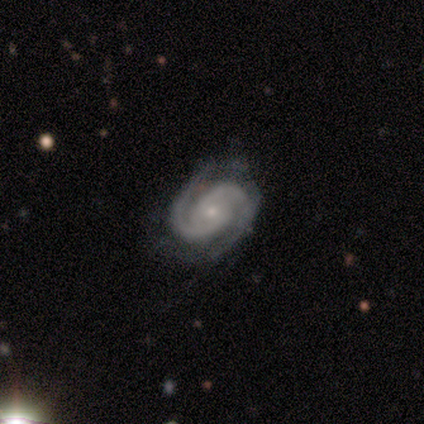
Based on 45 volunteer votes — This appears to be a featured or disk galaxy (89%) with no bar (68%), 2 (90%) tight (57%) spiral arms (100%) and a small central bulge (80%). Merging: none (65%).